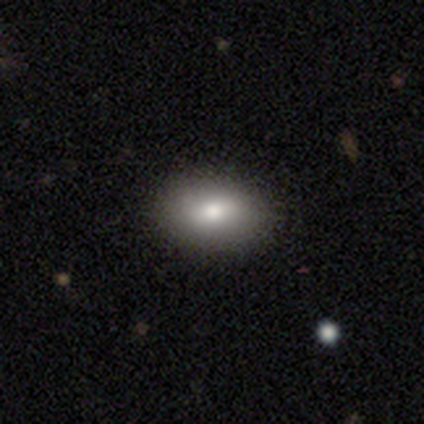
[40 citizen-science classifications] Smooth or featured? smooth (72%)
How rounded? in between (90%)
Merging? none (92%)